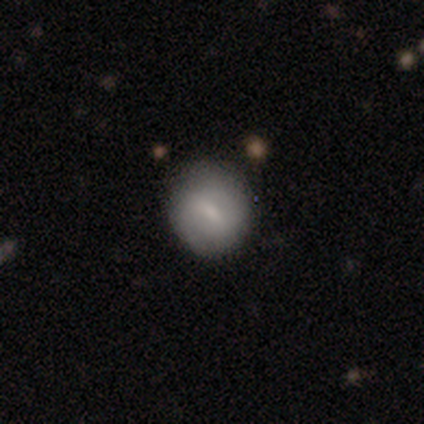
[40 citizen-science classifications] A smooth galaxy with no disk features (62%) that is round (72%).

Vote fractions:
- Smooth or featured? smooth: 62% / featured or disk: 35% / star or artifact: 2%
- How rounded? round: 72% / in between: 28% / cigar-shaped: 0%
- Merging? none: 62% / minor disturbance: 13% / merger: 3% / major disturbance: 0%